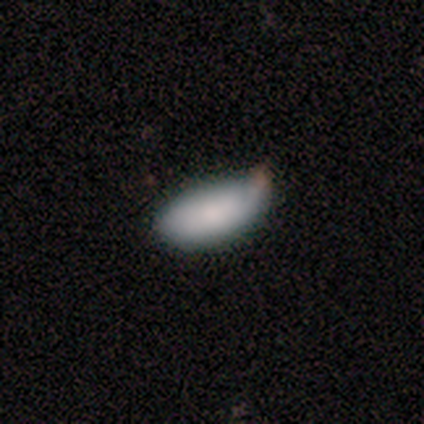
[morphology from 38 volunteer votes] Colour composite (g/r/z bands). It shows a smooth galaxy with no disk features (76%) that is in between round and cigar-shaped (90%). Merging: minor disturbance (59%).